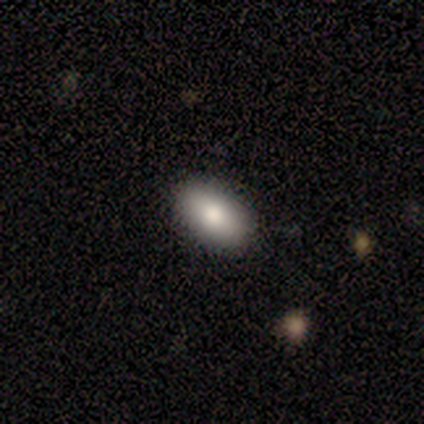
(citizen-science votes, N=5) Smooth or featured?
  - smooth: 80% *
  - featured or disk: 20%
  - star or artifact: 0%
How rounded?
  - in between: 100% *
  - round: 0%
  - cigar-shaped: 0%
Merging?
  - none: 80% *
  - minor disturbance: 20%
  - major disturbance: 0%
  - merger: 0%